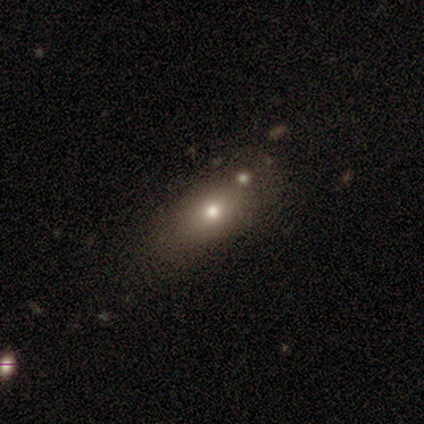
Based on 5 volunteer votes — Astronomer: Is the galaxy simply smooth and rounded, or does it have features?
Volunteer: smooth — 60% (runner-up: featured or disk, 40%).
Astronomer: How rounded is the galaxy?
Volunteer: in between — 100%.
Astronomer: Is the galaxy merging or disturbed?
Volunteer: merger — 80%.